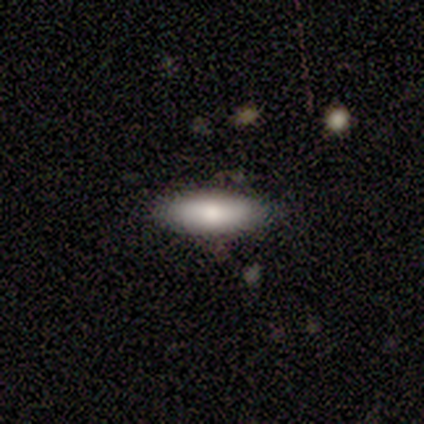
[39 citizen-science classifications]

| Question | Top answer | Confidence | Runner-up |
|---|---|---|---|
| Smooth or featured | smooth | 87% | featured or disk (13%) |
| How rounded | in between | 65% | cigar-shaped (35%) |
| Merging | none | 79% | minor disturbance (18%) |